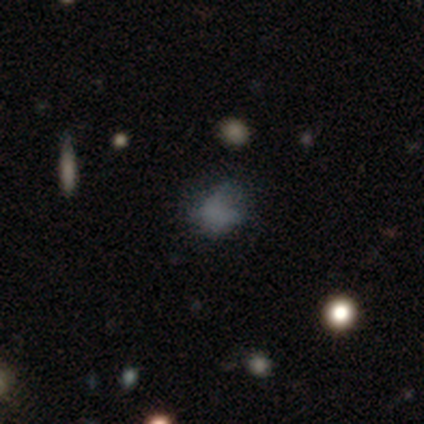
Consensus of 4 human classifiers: smooth 50%, featured or disk 25%, star or artifact 25%. Down the decision tree: how rounded — round (100%); merging — minor disturbance (67%).